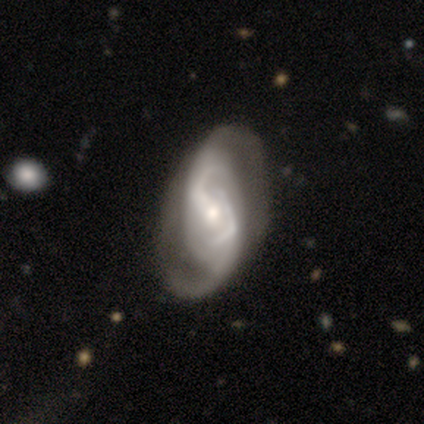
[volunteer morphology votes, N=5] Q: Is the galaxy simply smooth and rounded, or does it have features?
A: featured or disk — 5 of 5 (100%).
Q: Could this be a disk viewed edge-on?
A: no — 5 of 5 (100%).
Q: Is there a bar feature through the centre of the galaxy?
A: weak — 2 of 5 (40%, tied with no).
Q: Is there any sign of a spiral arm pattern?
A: yes — 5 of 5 (100%).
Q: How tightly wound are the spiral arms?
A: loose — 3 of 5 (60%).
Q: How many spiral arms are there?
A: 2 — 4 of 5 (80%).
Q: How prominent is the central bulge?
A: small — 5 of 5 (100%).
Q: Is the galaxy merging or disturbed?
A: none — 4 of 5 (80%).